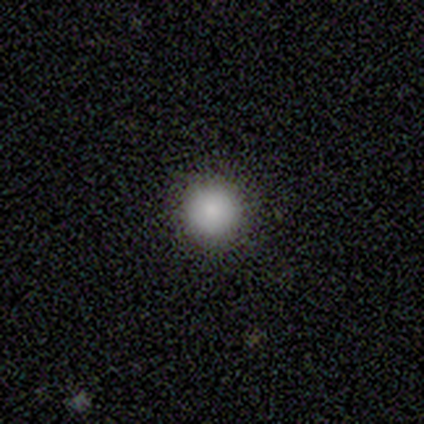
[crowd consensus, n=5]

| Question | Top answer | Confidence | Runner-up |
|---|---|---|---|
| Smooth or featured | smooth | 80% | star or artifact (20%) |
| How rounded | round | 100% | — |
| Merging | none | 100% | — |